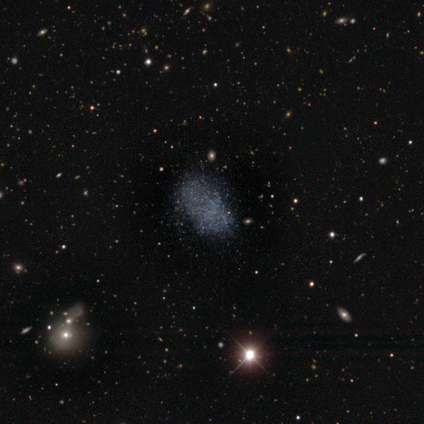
Morphology: type=smooth (33%, tied with featured or disk and star or artifact); roundness=in between (67%); merging=none (67%).